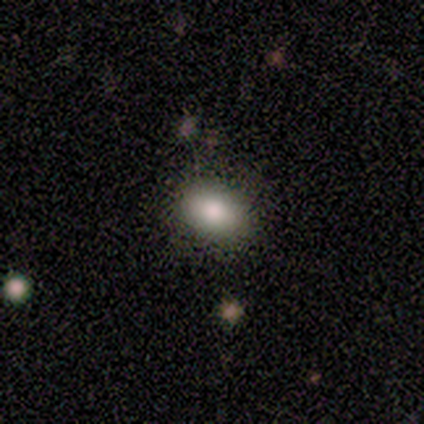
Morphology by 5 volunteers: type=smooth (80%); roundness=round (50%, tied with in between); merging=none (100%).